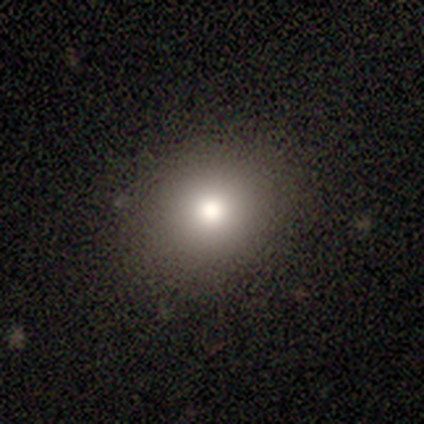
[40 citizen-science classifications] Q: Smooth or featured?
A: smooth (88%); runner-up: star or artifact (8%)
Q: How rounded?
A: round (74%); runner-up: in between (26%)
Q: Merging?
A: none (76%); runner-up: minor disturbance (3%)